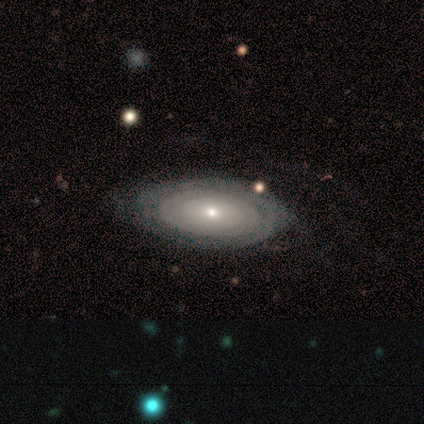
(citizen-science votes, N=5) Morphology: type=featured or disk (80%); edge-on=no (75%); bar=no (100%); spiral arms=yes (67%); winding=tight (100%); arm count=more than 4 (50%, tied with can't tell); bulge=moderate (67%); merging=none (100%).